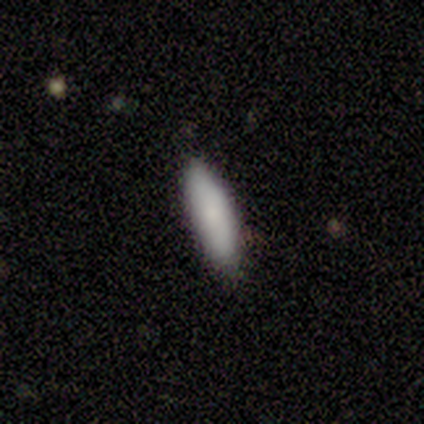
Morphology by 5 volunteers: Smooth or featured? smooth (100%)
How rounded? cigar-shaped (60%)
Merging? none (100%)